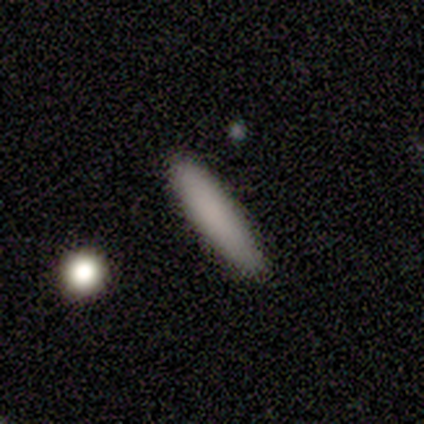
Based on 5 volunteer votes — Q: Smooth or featured?
A: smooth (80%); runner-up: star or artifact (20%)
Q: How rounded?
A: cigar-shaped (100%)
Q: Merging?
A: none (100%)